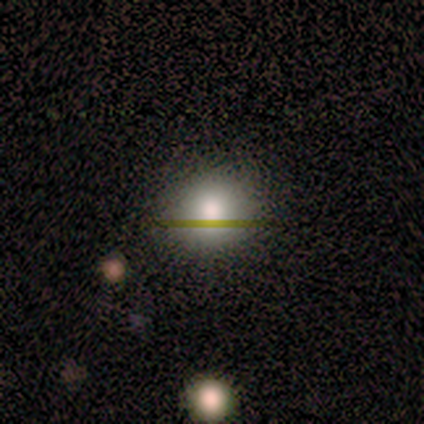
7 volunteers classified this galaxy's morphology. Q: Smooth or featured?
A: smooth (86%); runner-up: star or artifact (14%)
Q: How rounded?
A: round (83%); runner-up: in between (17%)
Q: Merging?
A: none (100%)